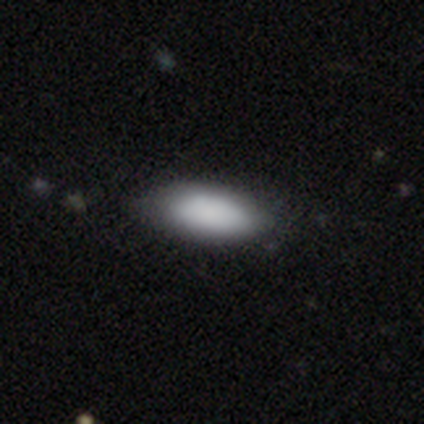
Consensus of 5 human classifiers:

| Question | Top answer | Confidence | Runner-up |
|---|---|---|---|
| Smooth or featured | smooth | 80% | star or artifact (20%) |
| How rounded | in between | 75% | cigar-shaped (25%) |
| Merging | none | 75% | minor disturbance (25%) |